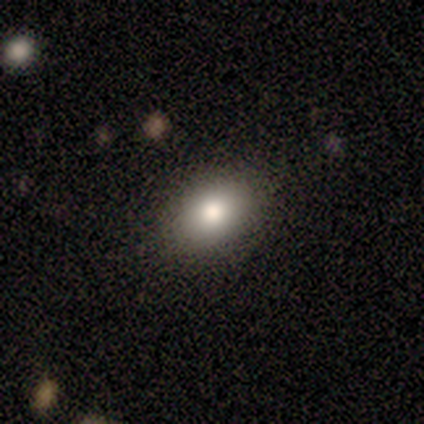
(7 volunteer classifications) This appears to be a smooth galaxy with no disk features (86%) that is in between round and cigar-shaped (83%). Merging: none (100%).